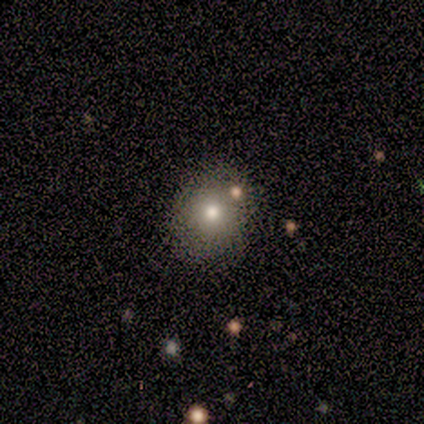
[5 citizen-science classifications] smooth_or_featured: smooth (p=1.00)
how_rounded: round (p=1.00)
merging: none (p=1.00)